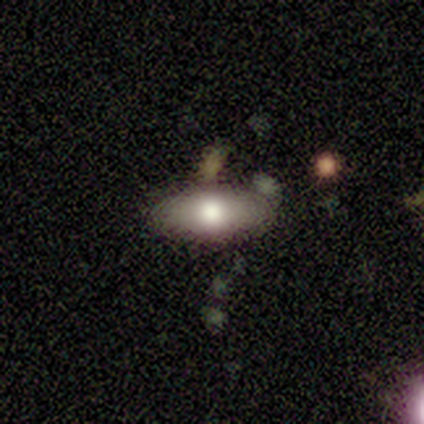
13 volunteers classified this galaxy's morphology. A smooth galaxy with no disk features (69%) that is in between round and cigar-shaped (78%). Merging: none (85%).